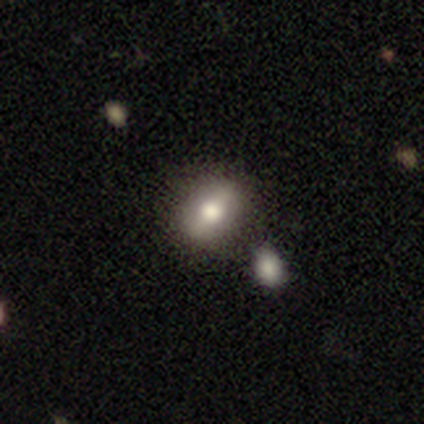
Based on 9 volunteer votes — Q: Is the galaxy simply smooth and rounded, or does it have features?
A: smooth — 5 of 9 (56%).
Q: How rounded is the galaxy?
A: in between — 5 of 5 (100%).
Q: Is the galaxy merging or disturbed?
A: none — 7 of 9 (78%).